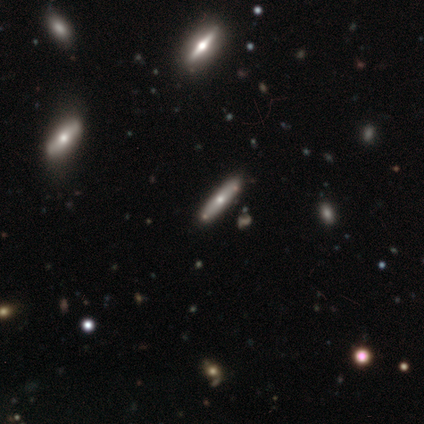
This is likely a featured or disk galaxy (60%). It is likely viewed edge-on (67%). Edge-on bulge: possibly none (50%, tied with rounded). Merging: likely none (60%).